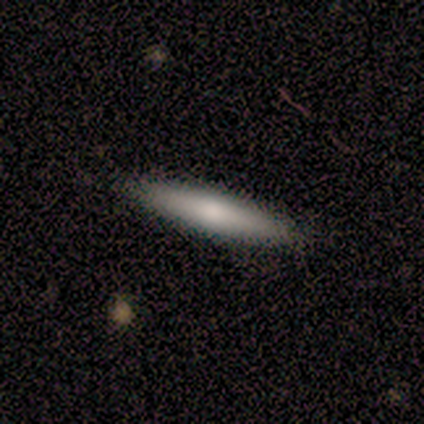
This is clearly a smooth galaxy (80%). How rounded: clearly cigar-shaped (100%). Merging: likely none (60%).